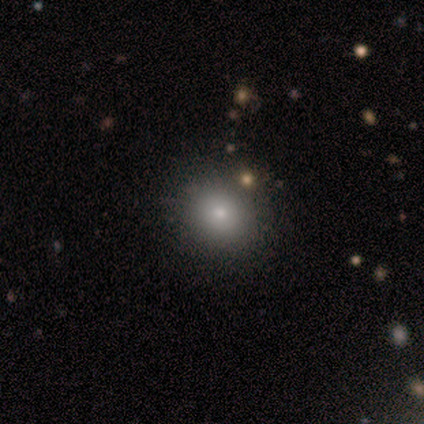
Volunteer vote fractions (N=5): Smooth or featured? smooth (80%)
How rounded? round (75%)
Merging? none (80%)